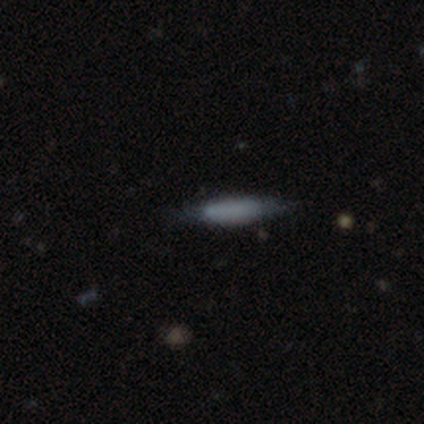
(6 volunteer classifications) Smooth or featured?
  - smooth: 67% *
  - featured or disk: 17%
  - star or artifact: 17%
How rounded?
  - in between: 50% * (tied)
  - cigar-shaped: 50% * (tied)
  - round: 0%
Merging?
  - none: 80% *
  - minor disturbance: 20%
  - major disturbance: 0%
  - merger: 0%